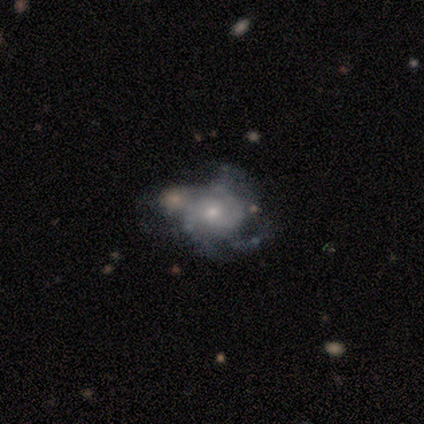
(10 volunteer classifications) Smooth or featured: featured or disk — 90% (smooth — 10%)
Edge-on disk: no — 89% (yes — 11%)
Bar: no — 75% (weak — 25%)
Spiral arms: yes — 75% (no — 25%)
Spiral winding: loose — 50% (tight — 33%)
Spiral arm count: 2 — 33% (tied with 3 — 33%)
Bulge size: moderate — 50% (large — 25%)
Merging: none — 40% (tied with major disturbance — 40%)